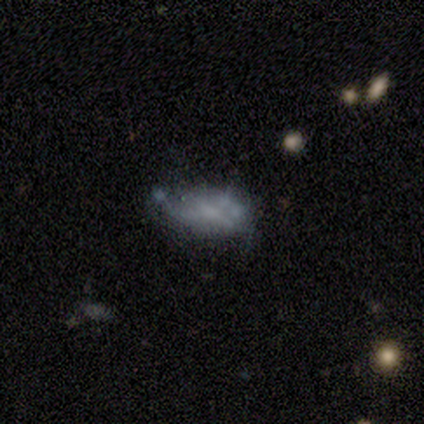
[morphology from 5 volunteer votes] This is likely a featured or disk galaxy (60%). It is clearly not viewed edge-on (100%). Bar: clearly no (100%). Spiral arm pattern: clearly no (100%). Central bulge: likely none (67%). Merging: likely minor disturbance (60%).